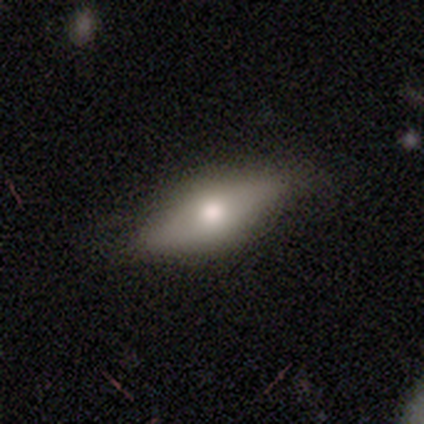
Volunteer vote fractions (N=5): A smooth galaxy with no disk features (60%) that is in between round and cigar-shaped (67%). Merging: none (100%).